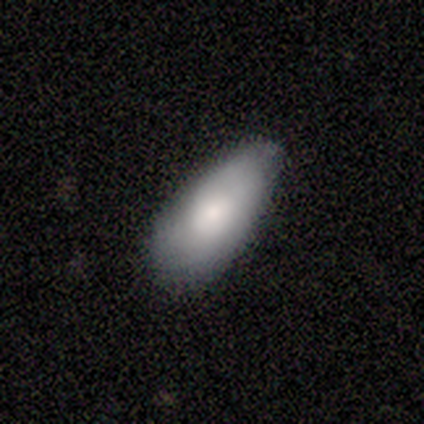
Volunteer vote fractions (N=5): smooth 60%, featured or disk 40%, star or artifact 0%. Down the decision tree: how rounded — in between (67%); merging — none (60%).